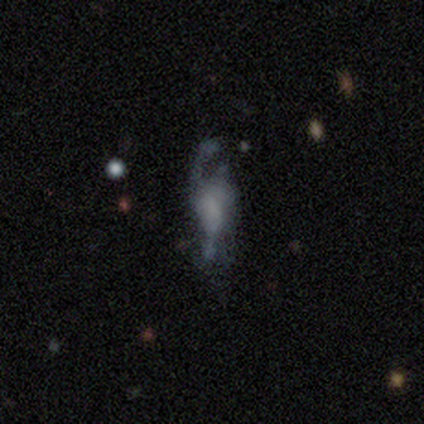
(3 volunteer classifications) featured or disk 67%, star or artifact 33%, smooth 0%. Down the decision tree: edge-on disk — no (100%); bar — strong (50%, tied with no); spiral arms — yes (100%); spiral arm count — 3 (100%); spiral winding — loose (100%); bulge size — none (100%); merging — none (50%, tied with minor disturbance).